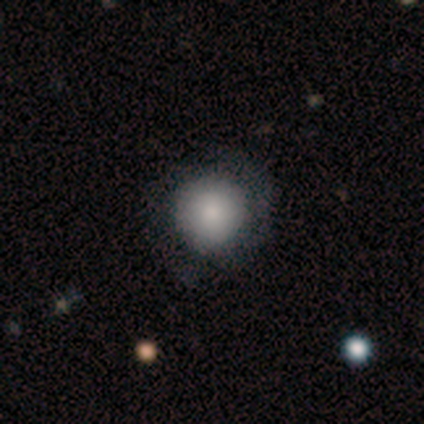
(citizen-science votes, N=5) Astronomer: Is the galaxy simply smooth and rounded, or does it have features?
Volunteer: smooth — 100%.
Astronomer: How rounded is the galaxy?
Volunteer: round — 100%.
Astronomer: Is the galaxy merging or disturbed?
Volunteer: none — 80%.